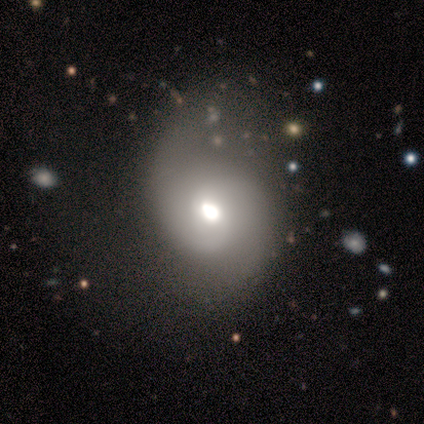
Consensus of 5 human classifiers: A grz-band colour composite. It shows a featured or disk galaxy (80%) with no bar (100%), 2 (100%) medium (67%) spiral arms (75%) and a moderate central bulge (75%). Merging: major disturbance (75%).